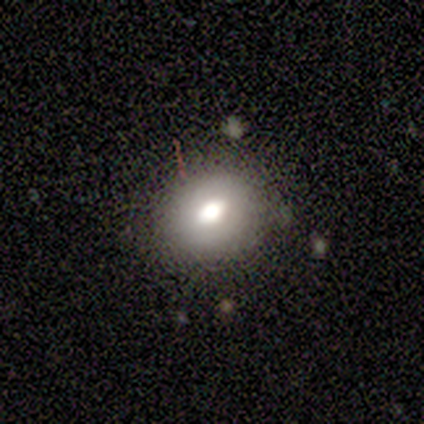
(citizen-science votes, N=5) A featured or disk galaxy (60%) viewed edge-on (67%) with a rounded central bulge (100%). Merging: none (40%, tied with major disturbance).